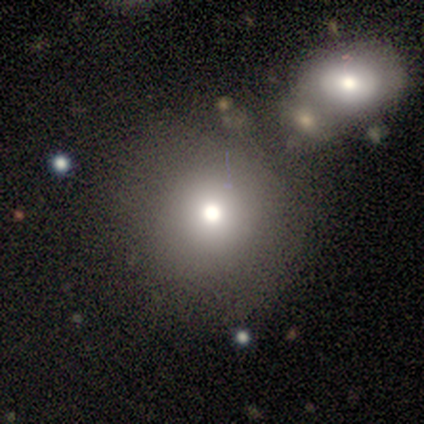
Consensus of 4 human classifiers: Smooth or featured: smooth — 75% (star or artifact — 25%)
How rounded: round — 100%
Merging: none — 100%